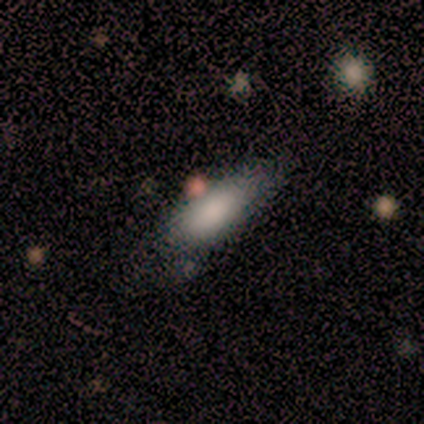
This appears to be a smooth galaxy with no disk features (100%) that is in between round and cigar-shaped (83%). Merging: none (67%).